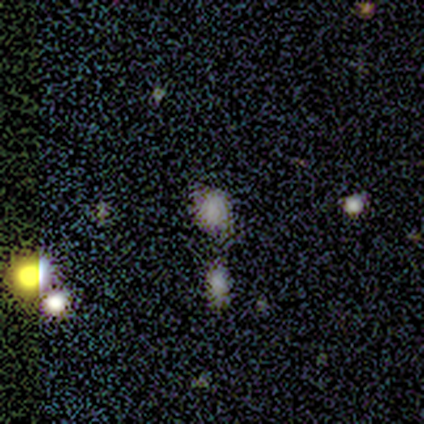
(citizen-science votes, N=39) This appears to be a smooth galaxy with no disk features (64%) that is round (52%). Merging: none (64%).